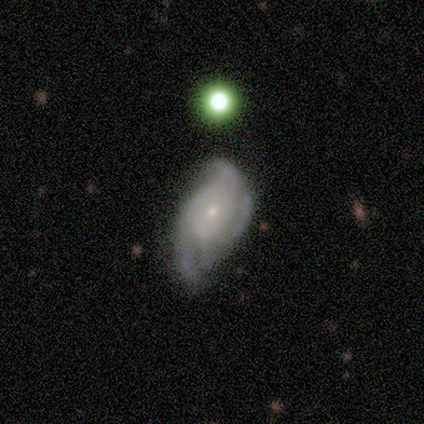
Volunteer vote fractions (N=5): This is clearly a featured or disk galaxy (100%). It is clearly not viewed edge-on (100%). Bar: likely weak (60%). Spiral arm pattern: clearly yes (80%). Spiral arm count: possibly 3 (50%). Spiral winding: likely medium (75%). Central bulge: clearly small (100%). Merging: likely none (60%).